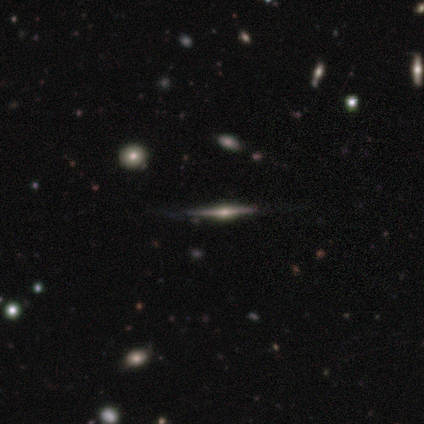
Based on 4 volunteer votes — Smooth or featured? featured or disk (100%)
Edge-on disk? yes (100%)
Edge-on bulge? rounded (100%)
Merging? none (100%)